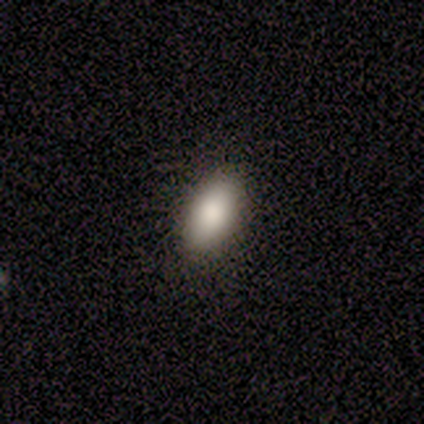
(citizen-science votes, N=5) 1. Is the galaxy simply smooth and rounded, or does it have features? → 100% smooth, 0% featured or disk, 0% star or artifact.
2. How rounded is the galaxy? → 100% in between, 0% round, 0% cigar-shaped.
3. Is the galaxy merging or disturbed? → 100% none, 0% minor disturbance, 0% major disturbance, 0% merger.